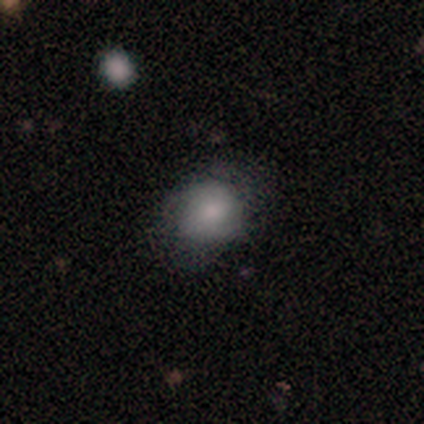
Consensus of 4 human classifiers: Q: Smooth or featured?
A: smooth (75%); runner-up: star or artifact (25%)
Q: How rounded?
A: round (67%); runner-up: in between (33%)
Q: Merging?
A: none (67%); runner-up: major disturbance (33%)